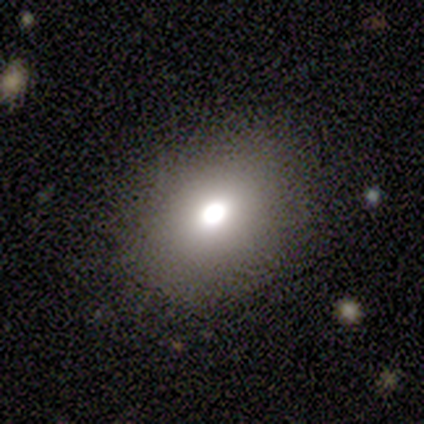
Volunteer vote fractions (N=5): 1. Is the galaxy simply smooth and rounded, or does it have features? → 60% smooth, 20% featured or disk, 20% star or artifact.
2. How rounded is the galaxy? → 67% in between, 33% round, 0% cigar-shaped.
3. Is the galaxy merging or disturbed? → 100% none, 0% minor disturbance, 0% major disturbance, 0% merger.